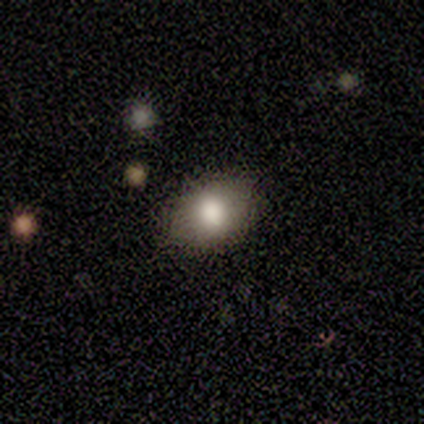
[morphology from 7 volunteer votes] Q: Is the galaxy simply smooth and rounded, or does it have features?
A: smooth — 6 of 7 (86%).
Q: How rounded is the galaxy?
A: in between — 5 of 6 (83%).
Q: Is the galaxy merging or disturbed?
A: none — 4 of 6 (67%).